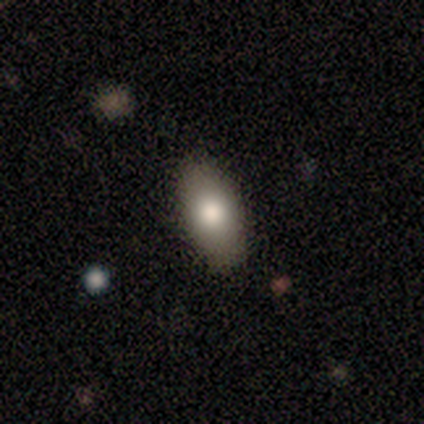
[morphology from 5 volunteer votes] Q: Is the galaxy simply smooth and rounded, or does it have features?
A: smooth — 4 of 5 (80%).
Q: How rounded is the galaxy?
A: in between — 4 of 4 (100%).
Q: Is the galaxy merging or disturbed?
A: none — 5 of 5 (100%).